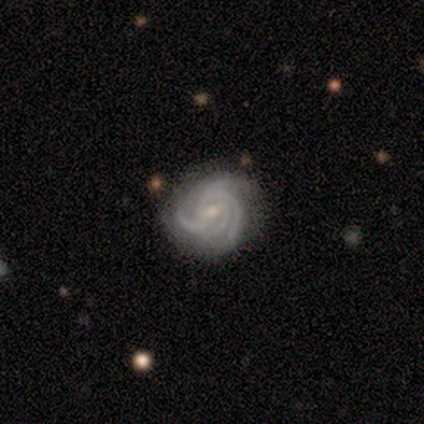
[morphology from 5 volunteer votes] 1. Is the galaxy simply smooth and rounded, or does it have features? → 100% featured or disk, 0% smooth, 0% star or artifact.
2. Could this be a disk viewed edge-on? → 100% no, 0% yes.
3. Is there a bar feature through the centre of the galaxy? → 80% weak, 20% no, 0% strong.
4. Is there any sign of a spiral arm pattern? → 100% yes, 0% no.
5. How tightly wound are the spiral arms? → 60% medium, 40% tight, 0% loose.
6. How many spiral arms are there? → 40% 3 (tied), 40% 4 (tied), 20% can't tell, 0% 1, 0% 2, 0% more than 4.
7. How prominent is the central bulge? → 100% small, 0% dominant, 0% large, 0% moderate, 0% none.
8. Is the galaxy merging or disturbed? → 100% none, 0% minor disturbance, 0% major disturbance, 0% merger.